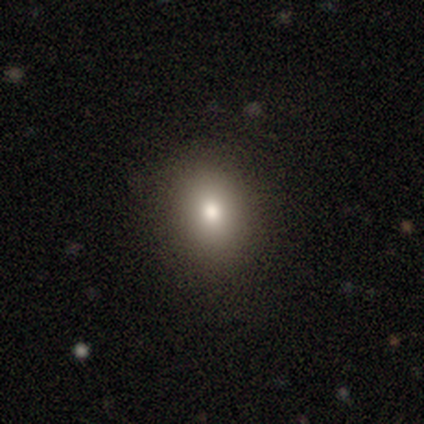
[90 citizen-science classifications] Overall: smooth (72%). How rounded: in between (52%; round 45%). Merging: none (93%).